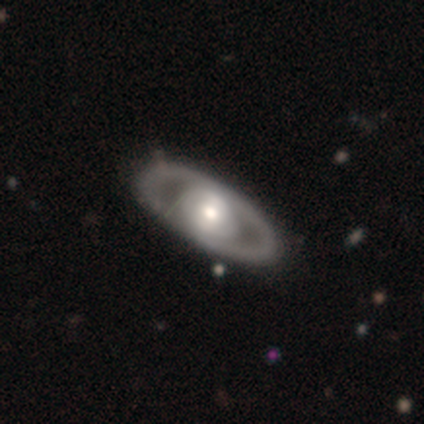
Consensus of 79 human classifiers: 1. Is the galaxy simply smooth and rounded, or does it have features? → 80% featured or disk, 20% smooth, 0% star or artifact.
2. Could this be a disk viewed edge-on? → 92% no, 8% yes.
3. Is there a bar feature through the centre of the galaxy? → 74% no, 19% weak, 7% strong.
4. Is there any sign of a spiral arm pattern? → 86% no, 14% yes.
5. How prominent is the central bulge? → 59% moderate, 22% large, 12% small, 7% dominant, 0% none.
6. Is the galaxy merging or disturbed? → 44% none, 4% minor disturbance, 1% major disturbance, 1% merger.